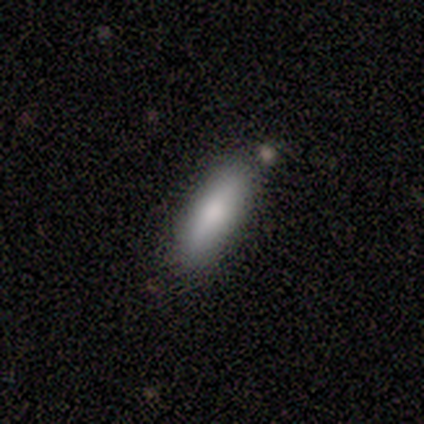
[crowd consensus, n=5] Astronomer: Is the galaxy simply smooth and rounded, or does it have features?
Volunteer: smooth — 100%.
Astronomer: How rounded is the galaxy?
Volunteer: in between — 100%.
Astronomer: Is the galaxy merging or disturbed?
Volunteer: none — 80%.